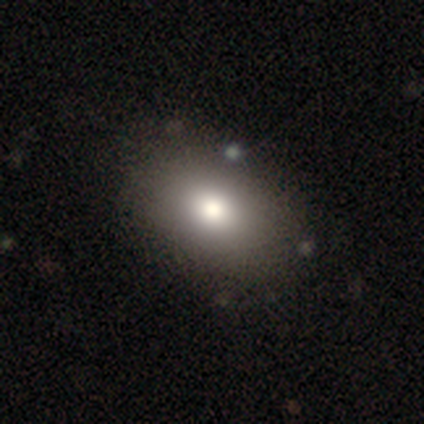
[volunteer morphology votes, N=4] Smooth or featured?
  - smooth: 75% *
  - featured or disk: 25%
  - star or artifact: 0%
How rounded?
  - in between: 100% *
  - round: 0%
  - cigar-shaped: 0%
Merging?
  - none: 75% *
  - minor disturbance: 25%
  - major disturbance: 0%
  - merger: 0%